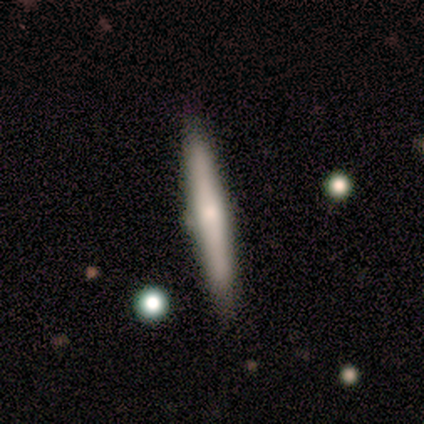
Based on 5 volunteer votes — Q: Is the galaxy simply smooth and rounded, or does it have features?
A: featured or disk — 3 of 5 (60%).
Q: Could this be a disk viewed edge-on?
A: yes — 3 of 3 (100%).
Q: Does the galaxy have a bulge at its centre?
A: rounded — 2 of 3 (67%).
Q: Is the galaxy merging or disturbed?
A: none — 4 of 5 (80%).